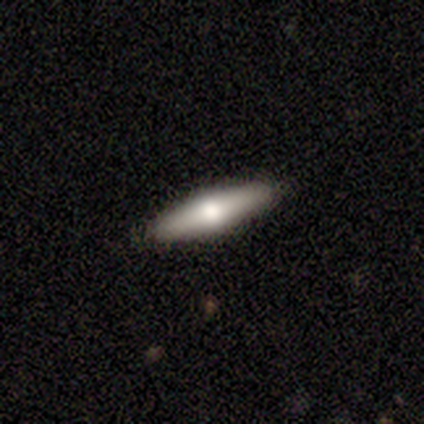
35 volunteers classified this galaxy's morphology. Smooth or featured: smooth — 46% (featured or disk — 40%)
How rounded: cigar-shaped — 75% (in between — 25%)
Merging: none — 90% (major disturbance — 7%)